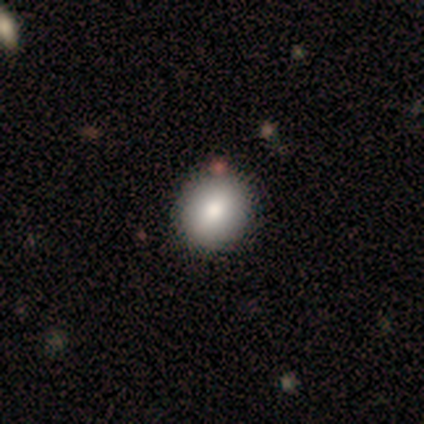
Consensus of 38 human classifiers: Smooth or featured?
  - smooth: 89% *
  - featured or disk: 5%
  - star or artifact: 5%
How rounded?
  - round: 88% *
  - in between: 12%
  - cigar-shaped: 0%
Merging?
  - none: 67% *
  - minor disturbance: 3%
  - major disturbance: 0%
  - merger: 0%